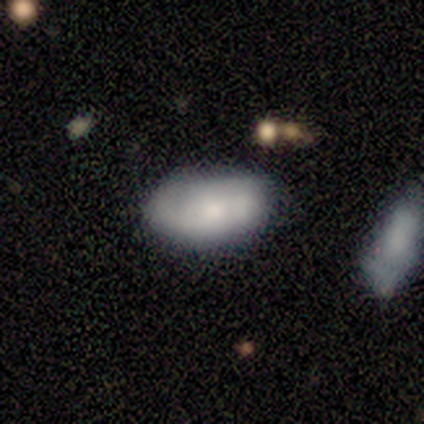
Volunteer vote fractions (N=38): A smooth galaxy with no disk features (68%) that is in between round and cigar-shaped (100%). Merging: none (68%).